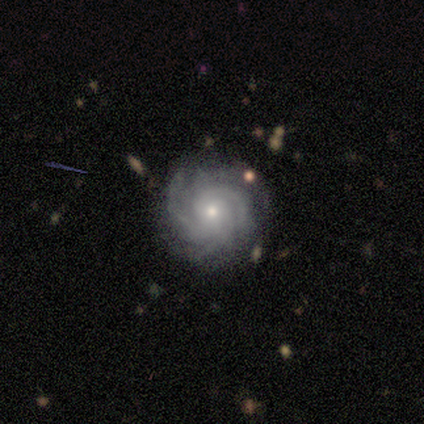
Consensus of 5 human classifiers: A featured or disk galaxy (100%) with no bar (100%), 4 (60%) tight (60%) spiral arms (100%) and a moderate central bulge (60%). Merging: none (80%).